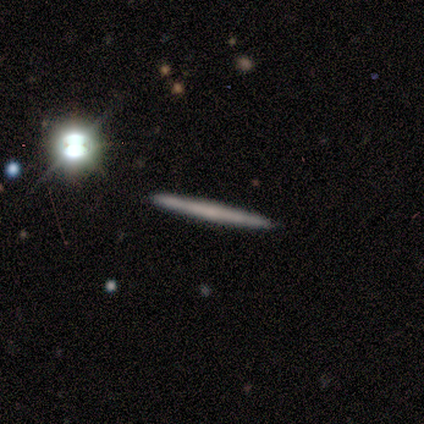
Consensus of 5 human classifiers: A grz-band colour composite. It shows a featured or disk galaxy (60%) viewed edge-on (100%) with no central bulge (67%). Merging: none (100%).